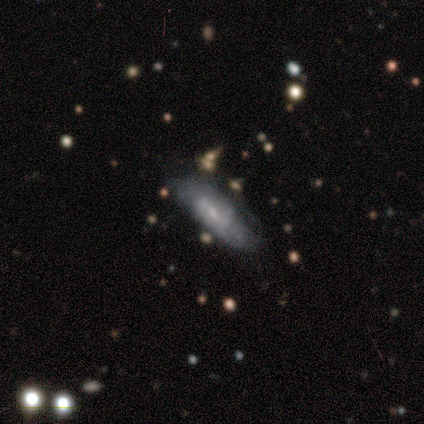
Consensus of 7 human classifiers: Q: Smooth or featured?
A: featured or disk (71%); runner-up: smooth (29%)
Q: Edge-on disk?
A: no (80%); runner-up: yes (20%)
Q: Bar?
A: weak (50%); tied with: no (50%)
Q: Spiral arms?
A: yes (75%); runner-up: no (25%)
Q: Spiral winding?
A: loose (67%); runner-up: medium (33%)
Q: Spiral arm count?
A: 1 (33%); tied with: 2 (33%); can't tell (33%)
Q: Bulge size?
A: small (75%); runner-up: none (25%)
Q: Merging?
A: none (71%); runner-up: minor disturbance (29%)